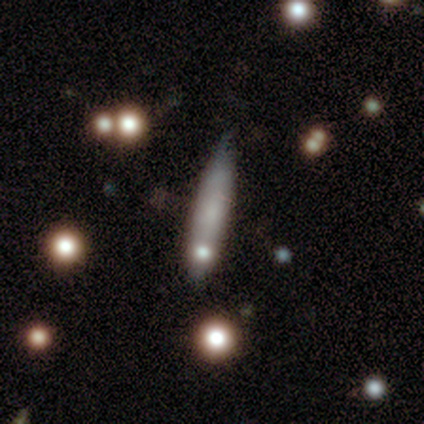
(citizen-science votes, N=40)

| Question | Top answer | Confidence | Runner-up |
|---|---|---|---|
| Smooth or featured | smooth | 65% | featured or disk (28%) |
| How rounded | cigar-shaped | 92% | in between (8%) |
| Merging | none | 43% | minor disturbance (14%) |